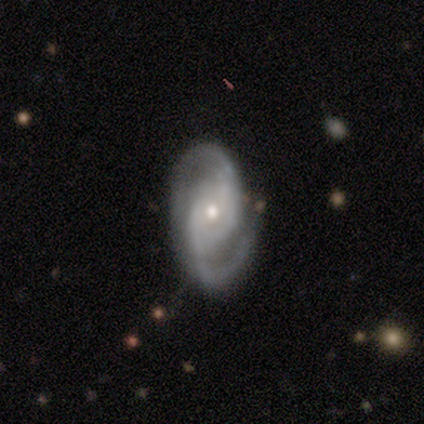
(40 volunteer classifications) A featured or disk galaxy (95%) with no bar (71%), 2 (91%) medium (47%) spiral arms (97%) and a small central bulge (63%).

Vote fractions:
- Smooth or featured? featured or disk: 95% / smooth: 2% / star or artifact: 2%
- Edge-on disk? no: 92% / yes: 8%
- Bar? no: 71% / weak: 17% / strong: 11%
- Spiral arms? yes: 97% / no: 3%
- Spiral winding? medium: 47% / tight: 26% / loose: 26%
- Spiral arm count? 2: 91% / 3: 6% / can't tell: 3% / 1: 0% / 4: 0% / more than 4: 0%
- Bulge size? small: 63% / moderate: 31% / large: 3% / none: 3% / dominant: 0%
- Merging? none: 79% / minor disturbance: 21% / major disturbance: 0% / merger: 0%